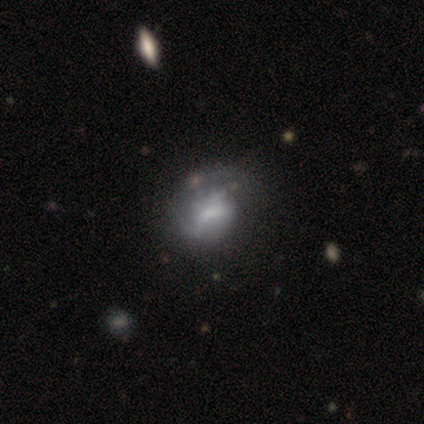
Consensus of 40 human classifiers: Smooth or featured: featured or disk — 62% (smooth — 32%)
Edge-on disk: no — 96% (yes — 4%)
Bar: weak — 50% (no — 42%)
Spiral arms: no — 58% (yes — 42%)
Bulge size: small — 33% (tied with none — 33%)
Merging: major disturbance — 29% (minor disturbance — 26%)